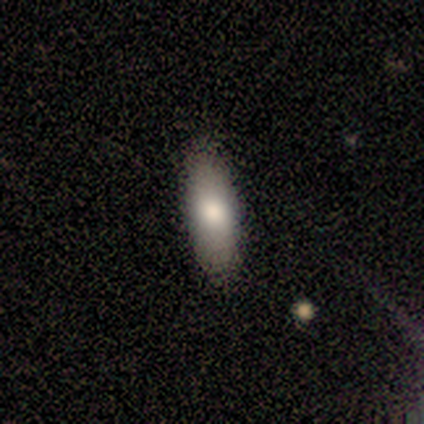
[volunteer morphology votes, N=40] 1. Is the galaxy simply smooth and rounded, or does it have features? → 82% smooth, 10% featured or disk, 8% star or artifact.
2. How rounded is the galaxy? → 79% in between, 21% cigar-shaped, 0% round.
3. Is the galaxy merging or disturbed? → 70% none, 5% minor disturbance, 3% major disturbance, 0% merger.